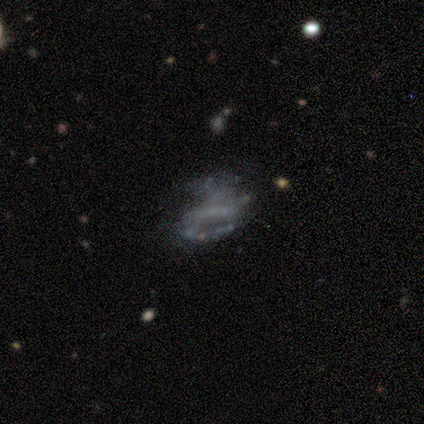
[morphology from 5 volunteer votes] featured or disk 80%, star or artifact 20%, smooth 0%. Down the decision tree: edge-on disk — no (100%); bar — no (75%); spiral arms — no (75%); bulge size — none (100%); merging — major disturbance (50%).